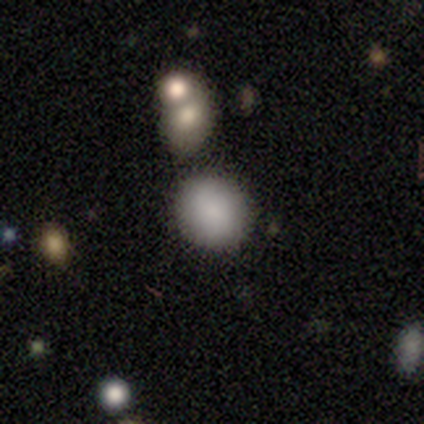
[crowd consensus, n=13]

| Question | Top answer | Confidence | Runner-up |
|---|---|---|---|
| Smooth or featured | smooth | 69% | star or artifact (23%) |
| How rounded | round | 67% | in between (33%) |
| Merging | none | 70% | merger (30%) |